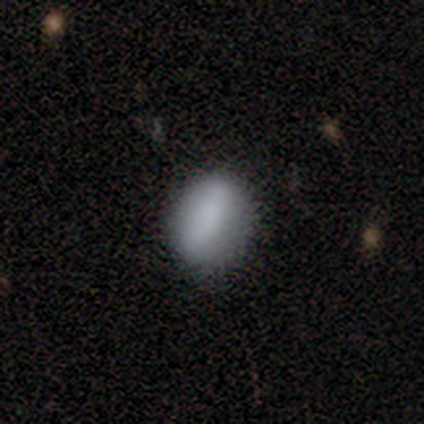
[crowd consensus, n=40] Volunteers were most divided on "how rounded" (2-way tie): round: 50%, in between: 50%, cigar-shaped: 0%. More confident: smooth or featured — smooth (75%); merging — none (65%).